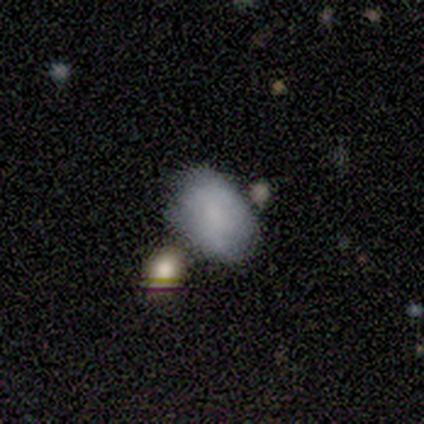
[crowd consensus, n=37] Smooth or featured: smooth — 68% (featured or disk — 24%)
How rounded: in between — 92% (round — 8%)
Merging: none — 65% (merger — 15%)